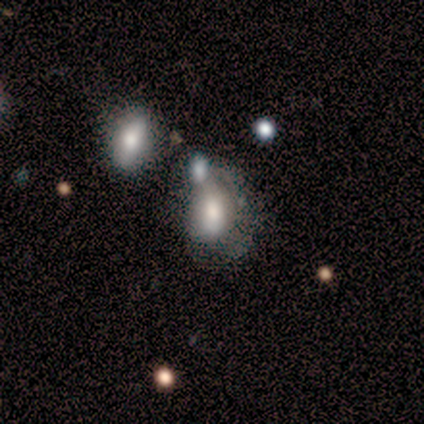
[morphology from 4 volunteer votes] type=featured or disk (75%); edge-on=no (100%); bar=weak (67%); spiral arms=no (67%); bulge=moderate (67%); merging=minor disturbance (50%, tied with merger).